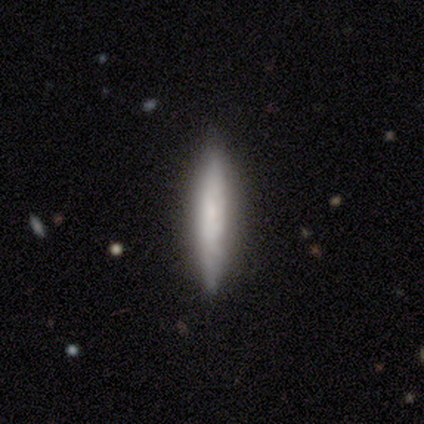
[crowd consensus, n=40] Smooth or featured?
  - smooth: 65% *
  - featured or disk: 32%
  - star or artifact: 2%
How rounded?
  - cigar-shaped: 96% *
  - in between: 4%
  - round: 0%
Merging?
  - none: 79% *
  - minor disturbance: 21%
  - major disturbance: 0%
  - merger: 0%